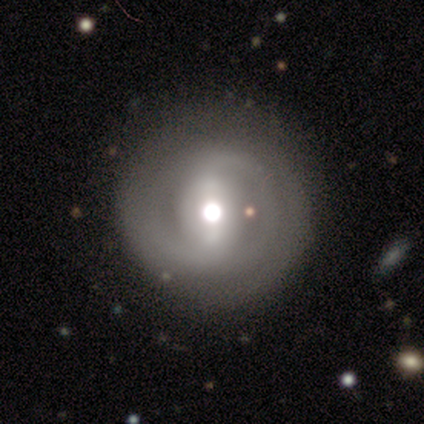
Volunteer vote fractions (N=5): A featured or disk galaxy (80%) with a weak bar (75%), 4 (50%, tied with can't tell) tight (100%) spiral arms (50%, tied with no) and a moderate central bulge (75%).

Vote fractions:
- Smooth or featured? featured or disk: 80% / smooth: 20% / star or artifact: 0%
- Edge-on disk? no: 100% / yes: 0%
- Bar? weak: 75% / strong: 25% / no: 0%
- Spiral arms? yes: 50% (tied) / no: 50% (tied)
- Spiral winding? tight: 100% / medium: 0% / loose: 0%
- Spiral arm count? 4: 50% (tied) / can't tell: 50% (tied) / 1: 0% / 2: 0% / 3: 0% / more than 4: 0%
- Bulge size? moderate: 75% / large: 25% / dominant: 0% / small: 0% / none: 0%
- Merging? none: 100% / minor disturbance: 0% / major disturbance: 0% / merger: 0%